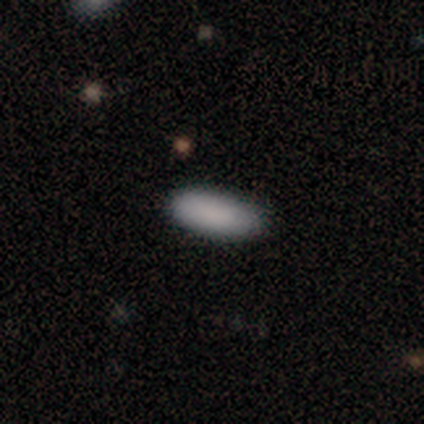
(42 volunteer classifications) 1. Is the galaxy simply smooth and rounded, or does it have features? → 83% smooth, 12% star or artifact, 5% featured or disk.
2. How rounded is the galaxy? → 80% in between, 17% cigar-shaped, 3% round.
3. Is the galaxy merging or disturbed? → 86% none, 11% minor disturbance, 3% major disturbance, 0% merger.